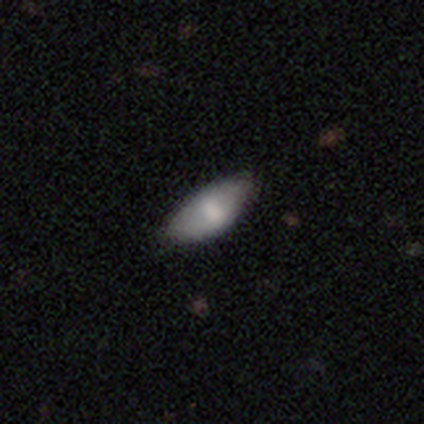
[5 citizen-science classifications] smooth 80%, featured or disk 20%, star or artifact 0%. Down the decision tree: how rounded — in between (100%); merging — none (80%).